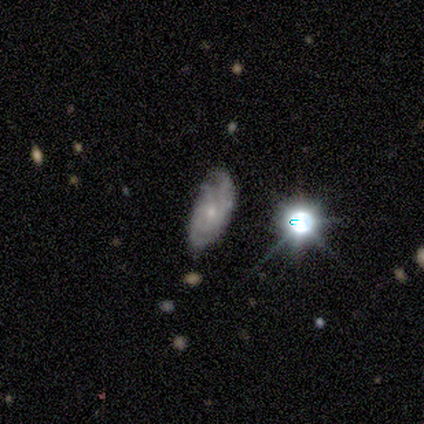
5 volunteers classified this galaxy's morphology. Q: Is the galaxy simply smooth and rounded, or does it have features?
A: featured or disk — 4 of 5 (80%).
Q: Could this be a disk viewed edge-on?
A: no — 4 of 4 (100%).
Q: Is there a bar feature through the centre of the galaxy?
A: no — 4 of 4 (100%).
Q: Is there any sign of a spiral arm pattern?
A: yes — 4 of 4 (100%).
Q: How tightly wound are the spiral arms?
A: tight — 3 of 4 (75%).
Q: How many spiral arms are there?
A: can't tell — 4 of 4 (100%).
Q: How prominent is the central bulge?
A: small — 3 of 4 (75%).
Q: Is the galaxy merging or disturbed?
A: minor disturbance — 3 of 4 (75%).